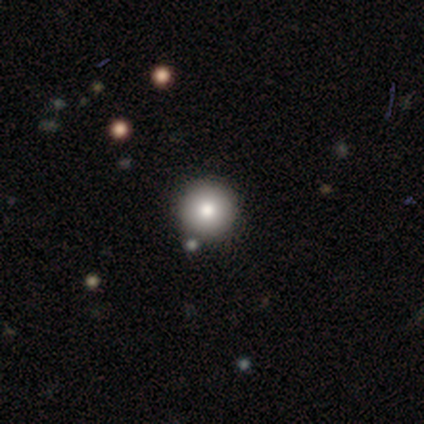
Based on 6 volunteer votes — Overall: smooth (83%). How rounded: round (100%). Merging: none (80%).